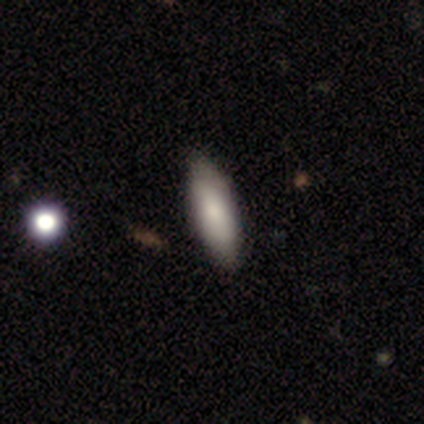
This is clearly a smooth galaxy (100%). How rounded: likely in between (60%). Merging: likely none (60%).